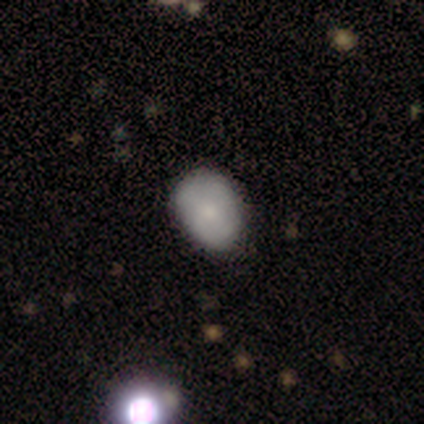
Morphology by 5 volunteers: Smooth or featured: smooth — 100%
How rounded: in between — 60% (round — 40%)
Merging: none — 100%